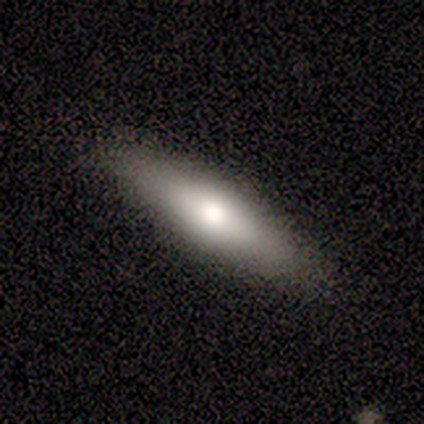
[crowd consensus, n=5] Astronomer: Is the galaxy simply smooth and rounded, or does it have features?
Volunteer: smooth — 60% (runner-up: featured or disk, 40%).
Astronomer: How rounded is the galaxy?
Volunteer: in between — 67%.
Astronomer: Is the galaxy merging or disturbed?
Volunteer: none — 80%.